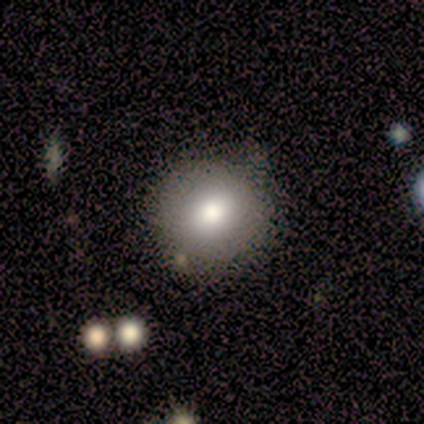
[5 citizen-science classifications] smooth 100%, featured or disk 0%, star or artifact 0%. Down the decision tree: how rounded — round (100%); merging — none (80%).